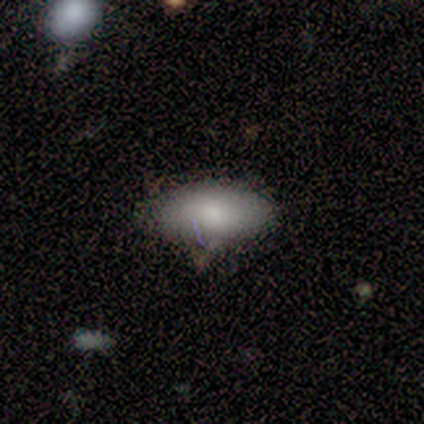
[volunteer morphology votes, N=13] type=smooth (77%); roundness=in between (90%); merging=none (75%).